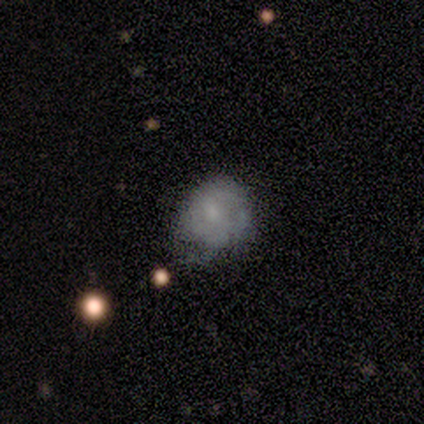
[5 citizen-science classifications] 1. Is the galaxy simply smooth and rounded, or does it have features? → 60% smooth, 20% featured or disk, 20% star or artifact.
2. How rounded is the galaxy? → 67% in between, 33% round, 0% cigar-shaped.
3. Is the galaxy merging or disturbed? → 50% minor disturbance, 25% none, 25% major disturbance, 0% merger.